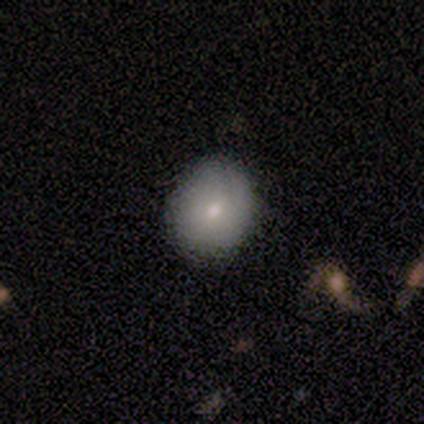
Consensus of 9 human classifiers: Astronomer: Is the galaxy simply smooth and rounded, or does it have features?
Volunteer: smooth — 67%.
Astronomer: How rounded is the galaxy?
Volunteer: round — 83%.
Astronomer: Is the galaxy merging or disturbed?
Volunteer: none — 100%.